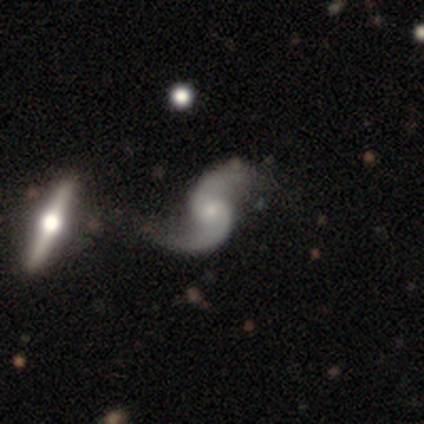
Overall: featured or disk (100%). Edge-on disk: no (100%). Bar: no (80%). Spiral arms: yes (100%). Spiral arm count: 2 (100%). Spiral winding: loose (100%). Bulge size: small (60%; moderate 20%). Merging: none (60%; minor disturbance 20%).